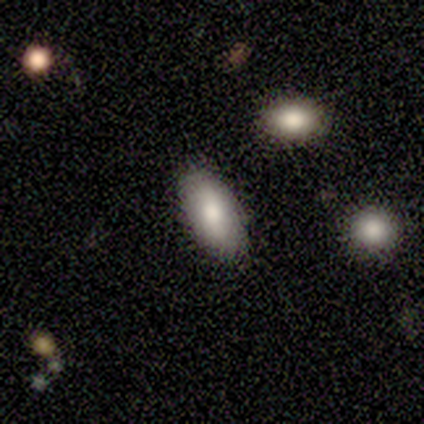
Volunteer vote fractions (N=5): Smooth or featured?
  - smooth: 80% *
  - featured or disk: 20%
  - star or artifact: 0%
How rounded?
  - in between: 100% *
  - round: 0%
  - cigar-shaped: 0%
Merging?
  - none: 100% *
  - minor disturbance: 0%
  - major disturbance: 0%
  - merger: 0%